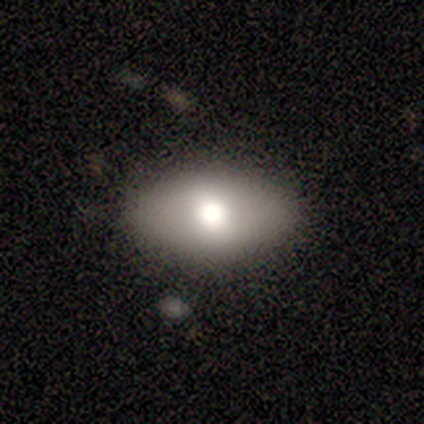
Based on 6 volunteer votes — Q: Smooth or featured?
A: smooth (50%); tied with: featured or disk (50%)
Q: How rounded?
A: in between (100%)
Q: Merging?
A: none (100%)